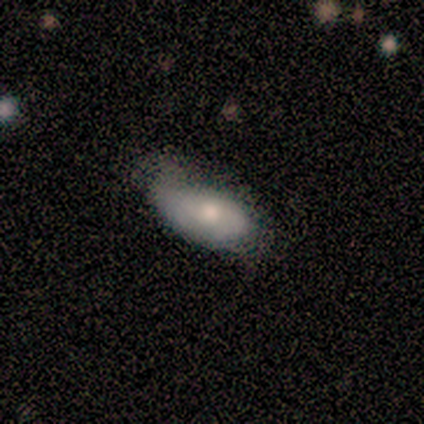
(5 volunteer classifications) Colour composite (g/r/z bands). It shows a smooth galaxy with no disk features (80%) that is in between round and cigar-shaped (100%). Merging: none (40%, tied with minor disturbance).